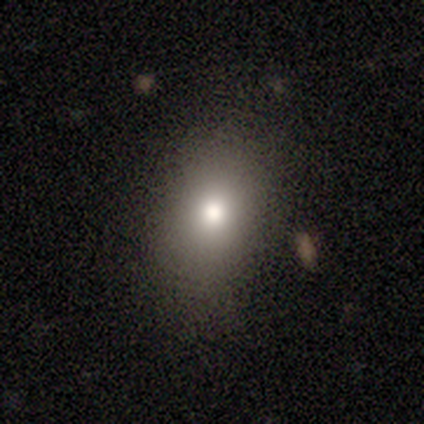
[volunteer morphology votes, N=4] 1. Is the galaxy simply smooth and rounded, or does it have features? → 50% smooth, 25% featured or disk, 25% star or artifact.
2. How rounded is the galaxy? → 50% round (tied), 50% in between (tied), 0% cigar-shaped.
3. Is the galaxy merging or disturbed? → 100% none, 0% minor disturbance, 0% major disturbance, 0% merger.